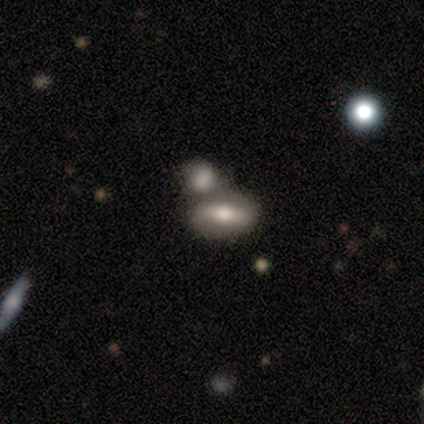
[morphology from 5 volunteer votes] Volunteers were most divided on "smooth or featured": smooth: 60%, featured or disk: 40%, star or artifact: 0%. More confident: how rounded — in between (100%); merging — none (60%).